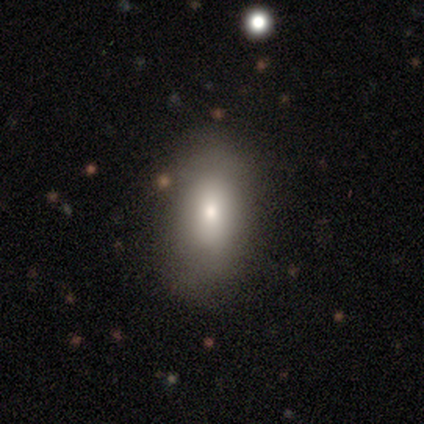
Smooth or featured? 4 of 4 (100%) said smooth. How rounded? 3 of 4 (75%) said in between. Merging? 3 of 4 (75%) said none.